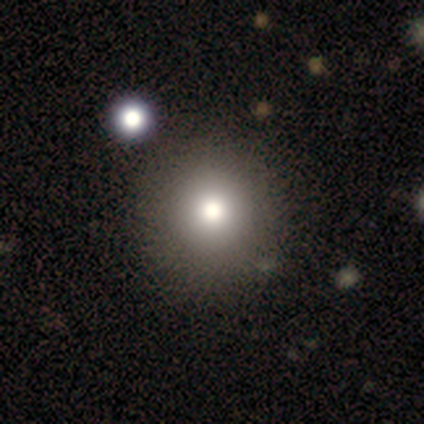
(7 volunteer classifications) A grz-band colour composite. It shows a smooth galaxy with no disk features (57%) that is round (100%). Merging: none (75%).